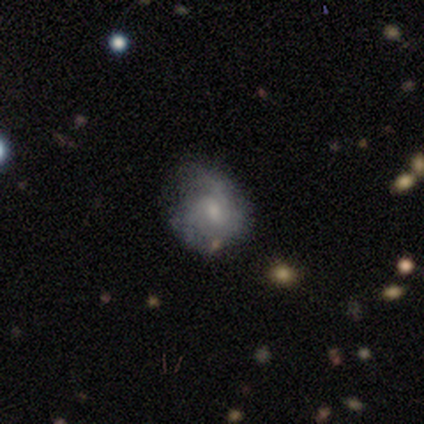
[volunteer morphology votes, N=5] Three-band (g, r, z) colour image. It shows a featured or disk galaxy (80%) with a weak bar (50%, tied with no), medium (67%) spiral arms (75%) and no central bulge (50%). Merging: none (80%).